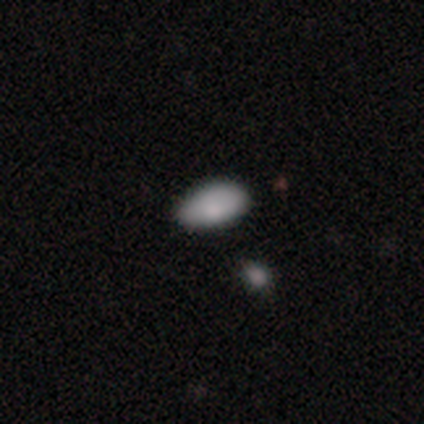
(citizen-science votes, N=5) This is clearly a smooth galaxy (100%). How rounded: clearly in between (100%). Merging: clearly none (100%).